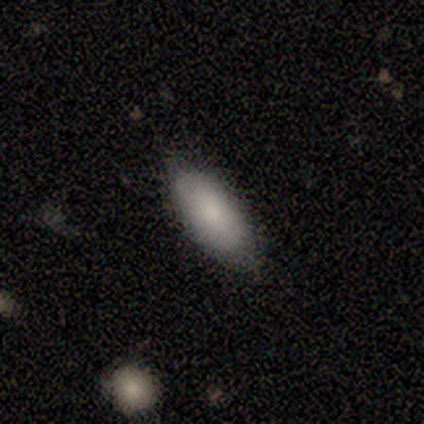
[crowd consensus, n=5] Smooth or featured? smooth (60%)
How rounded? in between (100%)
Merging? none (100%)